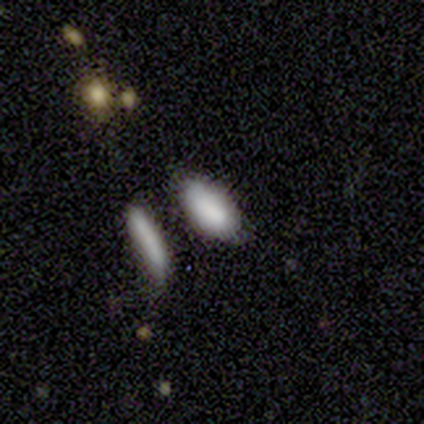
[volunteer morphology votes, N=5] This appears to be a smooth galaxy with no disk features (100%) that is in between round and cigar-shaped (100%). Merging: none (60%).